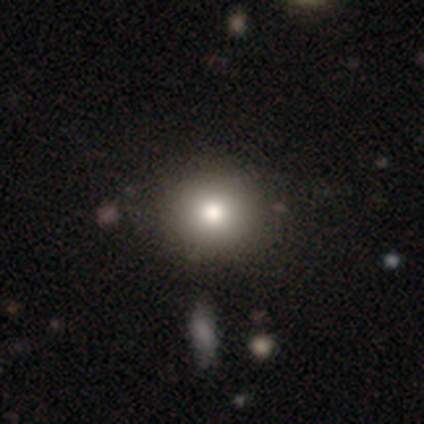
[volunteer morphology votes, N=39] Smooth or featured?
  - smooth: 90% *
  - star or artifact: 8%
  - featured or disk: 3%
How rounded?
  - round: 86% *
  - in between: 14%
  - cigar-shaped: 0%
Merging?
  - none: 58% *
  - minor disturbance: 6%
  - merger: 6%
  - major disturbance: 0%